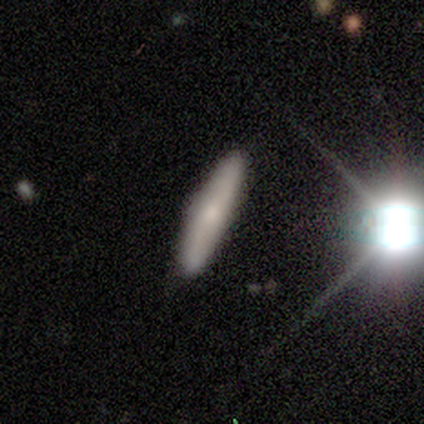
This is clearly a smooth galaxy (80%). How rounded: clearly cigar-shaped (100%). Merging: clearly none (100%).